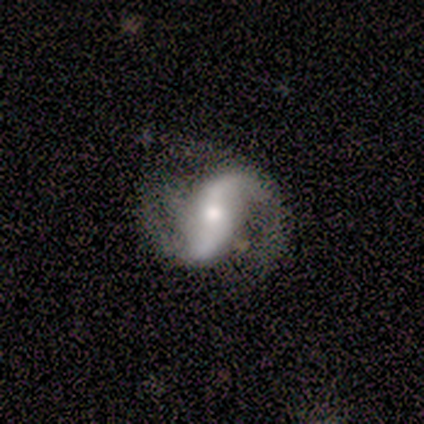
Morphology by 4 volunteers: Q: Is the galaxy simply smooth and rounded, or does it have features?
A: featured or disk — 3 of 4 (75%).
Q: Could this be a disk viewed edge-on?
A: no — 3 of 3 (100%).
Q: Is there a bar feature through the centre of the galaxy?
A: no — 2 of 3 (67%).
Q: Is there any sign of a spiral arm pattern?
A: yes — 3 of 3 (100%).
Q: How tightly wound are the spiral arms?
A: loose — 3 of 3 (100%).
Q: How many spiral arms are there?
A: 2 — 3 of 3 (100%).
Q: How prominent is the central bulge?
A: moderate — 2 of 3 (67%).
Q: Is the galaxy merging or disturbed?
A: none — 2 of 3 (67%).